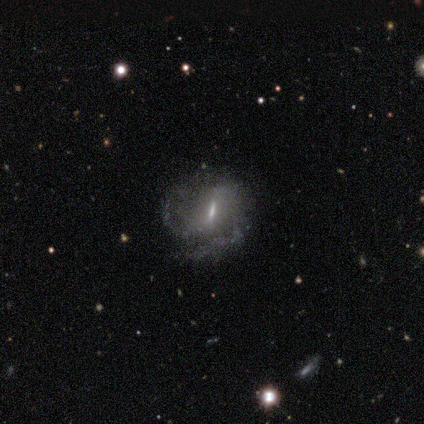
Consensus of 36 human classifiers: Smooth or featured? featured or disk (81%)
Edge-on disk? no (97%)
Bar? weak (57%)
Spiral arms? yes (89%)
Spiral winding? tight (44%, tied with medium)
Spiral arm count? 2 (84%)
Bulge size? small (54%)
Merging? none (76%)